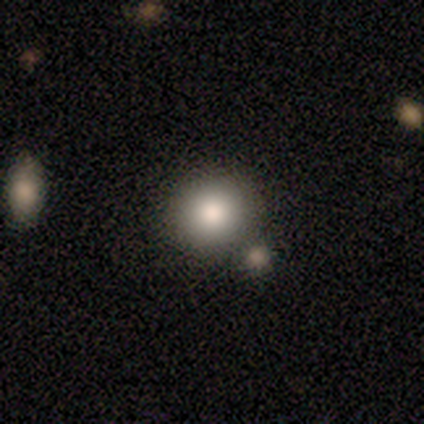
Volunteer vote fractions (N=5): smooth_or_featured: smooth (p=0.60) [alt: featured or disk p=0.20]
how_rounded: round (p=1.00)
merging: none (p=0.75) [alt: merger p=0.25]